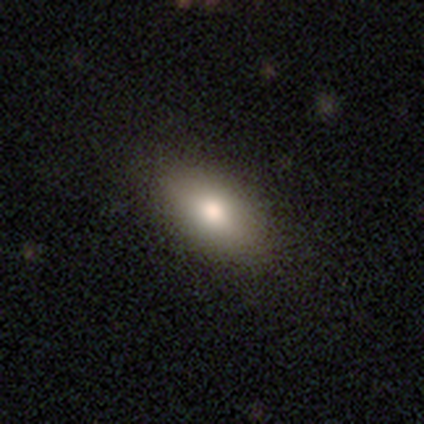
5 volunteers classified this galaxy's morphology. This is clearly a smooth galaxy (80%). How rounded: likely in between (75%). Merging: clearly none (100%).